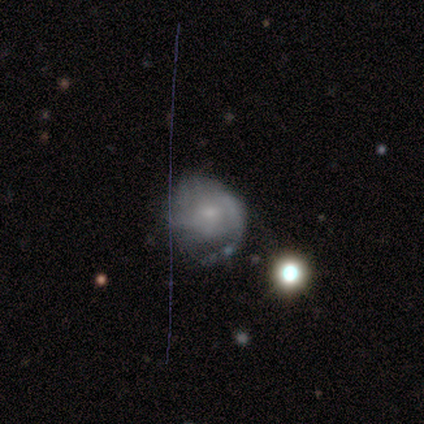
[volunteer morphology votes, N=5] A featured or disk galaxy (60%) with no bar (100%), medium (100%) spiral arms (100%) and a small central bulge (67%).

Vote fractions:
- Smooth or featured? featured or disk: 60% / smooth: 40% / star or artifact: 0%
- Edge-on disk? no: 100% / yes: 0%
- Bar? no: 100% / strong: 0% / weak: 0%
- Spiral arms? yes: 100% / no: 0%
- Spiral winding? medium: 100% / tight: 0% / loose: 0%
- Spiral arm count? can't tell: 67% / 3: 33% / 1: 0% / 2: 0% / 4: 0% / more than 4: 0%
- Bulge size? small: 67% / moderate: 33% / dominant: 0% / large: 0% / none: 0%
- Merging? none: 80% / minor disturbance: 20% / major disturbance: 0% / merger: 0%